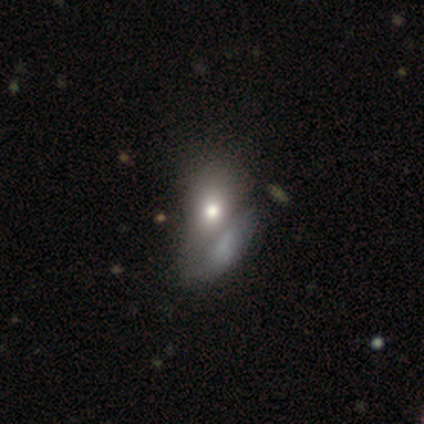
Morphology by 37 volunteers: Q: Smooth or featured?
A: smooth (57%); runner-up: featured or disk (41%)
Q: How rounded?
A: in between (71%); runner-up: round (24%)
Q: Merging?
A: merger (50%); runner-up: major disturbance (22%)